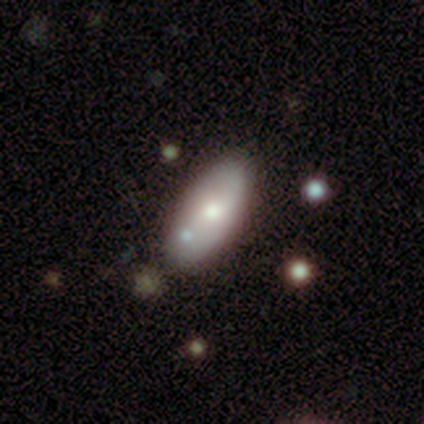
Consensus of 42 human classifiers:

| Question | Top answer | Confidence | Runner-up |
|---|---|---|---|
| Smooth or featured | smooth | 60% | featured or disk (33%) |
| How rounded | in between | 92% | cigar-shaped (8%) |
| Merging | none | 62% | minor disturbance (23%) |